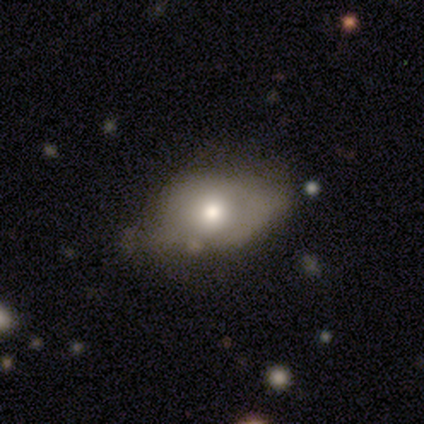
Smooth or featured?
  - smooth: 79% *
  - featured or disk: 16%
  - star or artifact: 5%
How rounded?
  - in between: 90% *
  - round: 10%
  - cigar-shaped: 0%
Merging?
  - minor disturbance: 42% *
  - none: 31%
  - major disturbance: 22%
  - merger: 6%